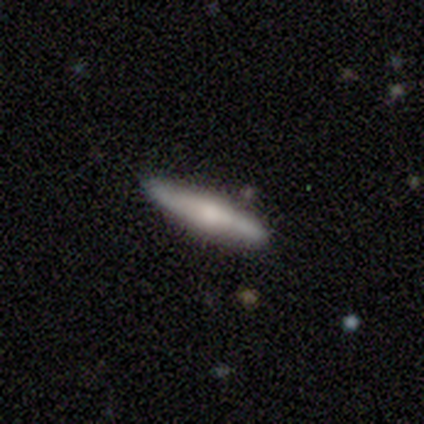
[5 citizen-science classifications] smooth 60%, featured or disk 40%, star or artifact 0%. Down the decision tree: how rounded — cigar-shaped (100%); merging — none (60%).